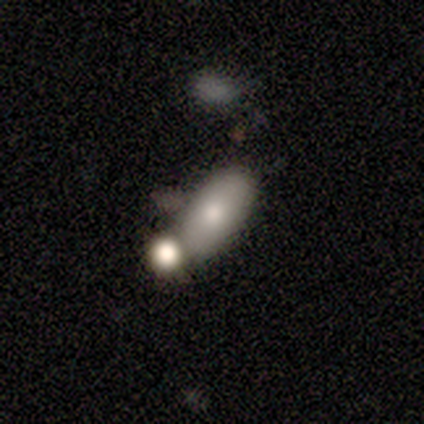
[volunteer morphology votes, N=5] Overall: smooth (100%). How rounded: in between (80%). Merging: none (80%).